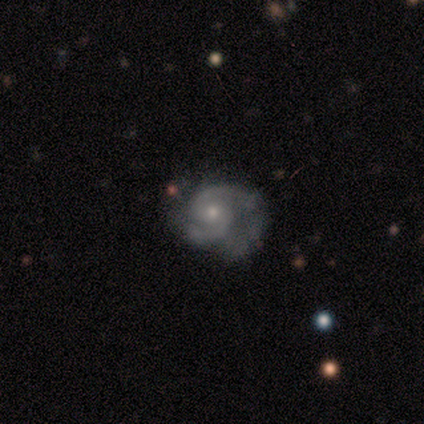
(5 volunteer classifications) Smooth or featured? 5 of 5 (100%) said featured or disk. Edge-on disk? 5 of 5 (100%) said no. Bar? 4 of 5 (80%) said no. Spiral arms? 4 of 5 (80%) said yes. Spiral winding? 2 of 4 (50%) said tight. Spiral arm count? 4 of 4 (100%) said 2. Bulge size? 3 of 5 (60%) said small. Merging? 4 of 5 (80%) said minor disturbance.